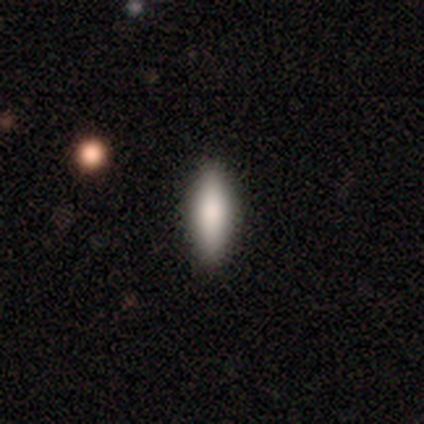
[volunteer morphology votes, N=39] Smooth or featured: smooth — 82% (featured or disk — 10%)
How rounded: in between — 66% (cigar-shaped — 34%)
Merging: none — 92% (minor disturbance — 8%)